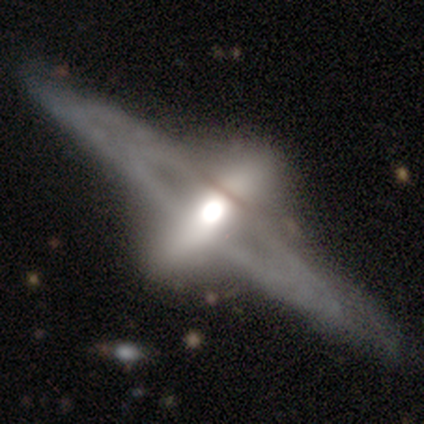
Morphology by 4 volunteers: Smooth or featured: featured or disk — 75% (smooth — 25%)
Edge-on disk: no — 67% (yes — 33%)
Bar: no — 100%
Spiral arms: no — 100%
Bulge size: moderate — 100%
Merging: none — 50% (minor disturbance — 25%)